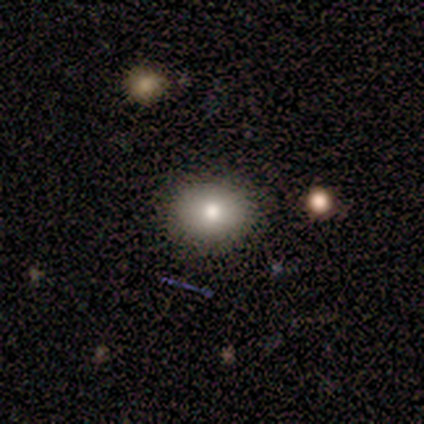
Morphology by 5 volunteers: smooth 100%, featured or disk 0%, star or artifact 0%. Down the decision tree: how rounded — in between (60%); merging — none (80%).